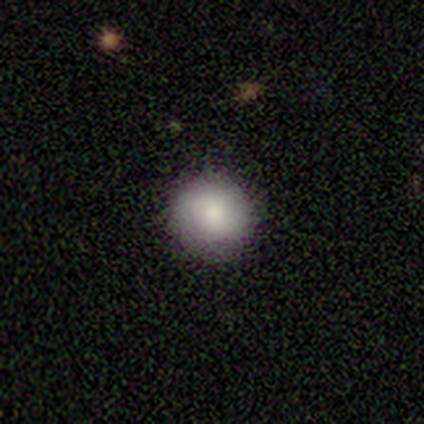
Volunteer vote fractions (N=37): This is clearly a smooth galaxy (81%). How rounded: clearly round (100%). Merging: clearly none (100%).